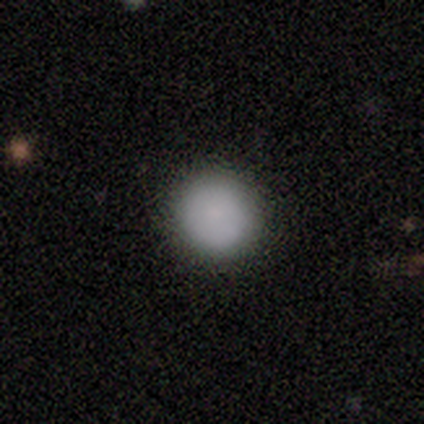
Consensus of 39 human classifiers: This appears to be a smooth galaxy with no disk features (82%) that is round (97%). Merging: none (73%).